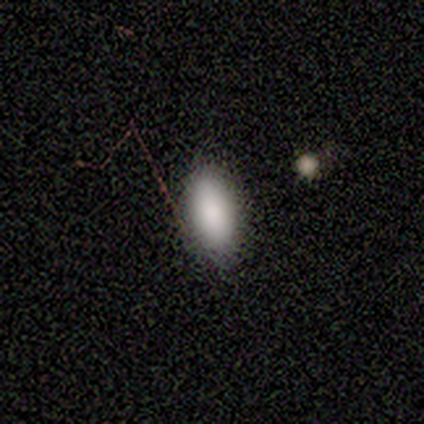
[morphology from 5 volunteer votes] Smooth or featured? 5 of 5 (100%) said smooth. How rounded? 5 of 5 (100%) said in between. Merging? 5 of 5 (100%) said none.